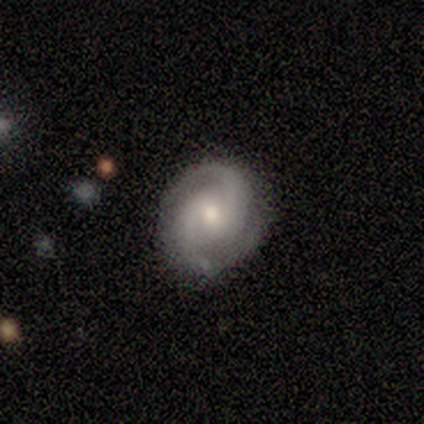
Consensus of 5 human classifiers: This appears to be a featured or disk galaxy (100%) with no bar (80%), 2 (100%) tight (50%, tied with medium) spiral arms (80%) and a moderate central bulge (60%). Merging: none (80%).